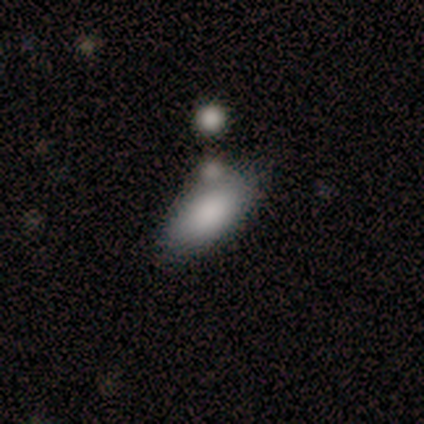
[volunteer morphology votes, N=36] Smooth or featured: smooth — 83% (featured or disk — 8%)
How rounded: in between — 90% (cigar-shaped — 7%)
Merging: none — 42% (merger — 36%)